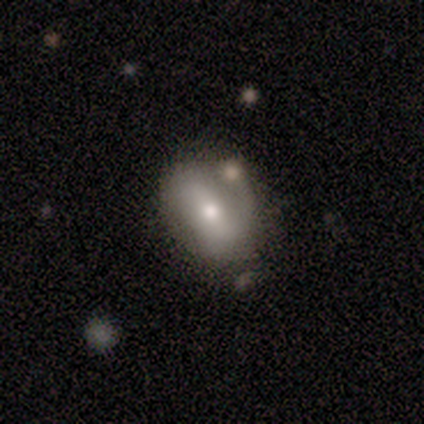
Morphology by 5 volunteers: Smooth or featured? featured or disk (60%)
Edge-on disk? no (100%)
Bar? no (100%)
Spiral arms? no (67%)
Bulge size? moderate (67%)
Merging? minor disturbance (40%)